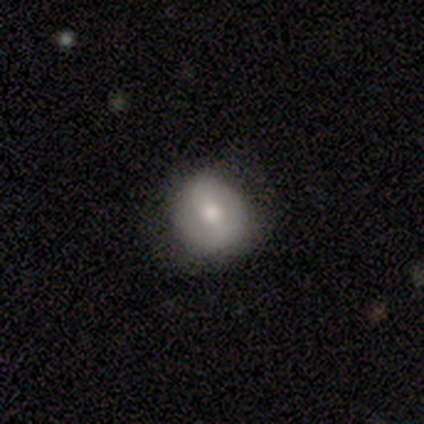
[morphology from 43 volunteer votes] This is possibly a smooth galaxy (56%). How rounded: clearly round (83%). Merging: likely none (66%).